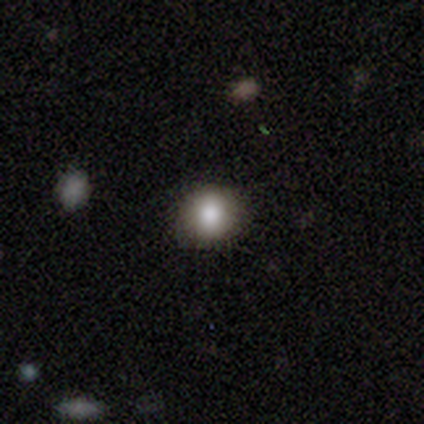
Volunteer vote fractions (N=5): smooth 60%, featured or disk 40%, star or artifact 0%. Down the decision tree: how rounded — round (100%); merging — none (60%).